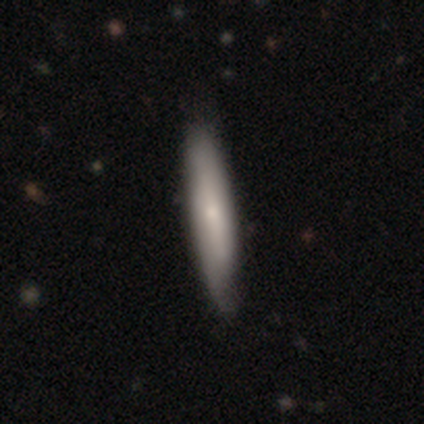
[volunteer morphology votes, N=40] smooth-or-featured: smooth: 48% | featured or disk: 45% | star or artifact: 8%
  how-rounded: cigar-shaped: 84% | in between: 16% | round: 0%
  merging: none: 51% | minor disturbance: 8% | major disturbance: 3% | merger: 3%